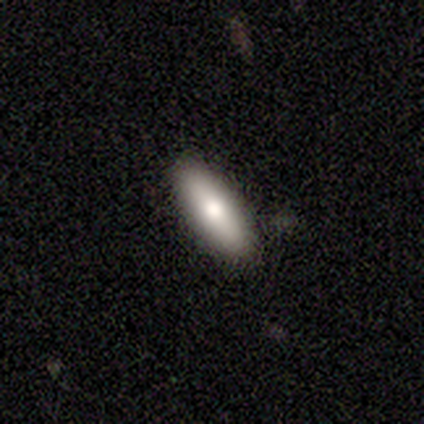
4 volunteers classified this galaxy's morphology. Smooth or featured? smooth (100%)
How rounded? in between (100%)
Merging? none (100%)